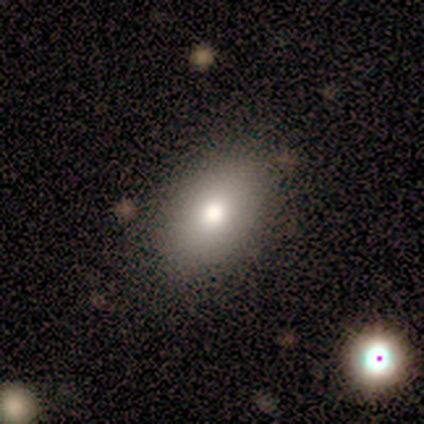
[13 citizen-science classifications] Volunteers were most divided on "smooth or featured": smooth: 46%, featured or disk: 38%, star or artifact: 15%. More confident: how rounded — in between (100%); merging — none (82%).